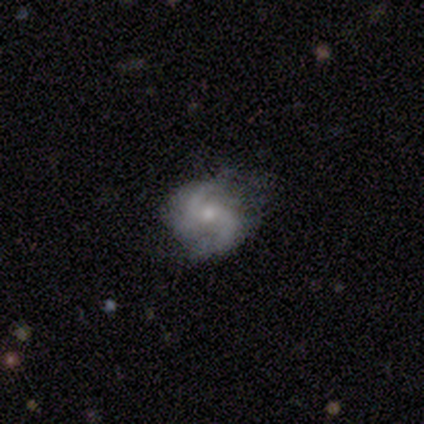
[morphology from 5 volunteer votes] Q: Smooth or featured?
A: featured or disk (100%)
Q: Edge-on disk?
A: no (100%)
Q: Bar?
A: no (60%); runner-up: weak (40%)
Q: Spiral arms?
A: yes (100%)
Q: Spiral winding?
A: tight (40%); tied with: medium (40%)
Q: Spiral arm count?
A: 2 (60%); runner-up: 3 (40%)
Q: Bulge size?
A: small (80%); runner-up: moderate (20%)
Q: Merging?
A: none (60%); runner-up: minor disturbance (40%)